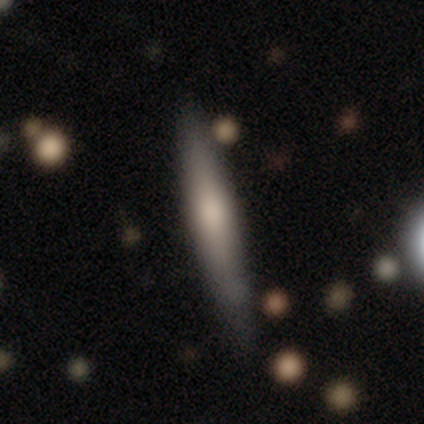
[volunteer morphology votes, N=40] This is likely a smooth galaxy (62%). How rounded: clearly cigar-shaped (100%). Merging: clearly none (86%).